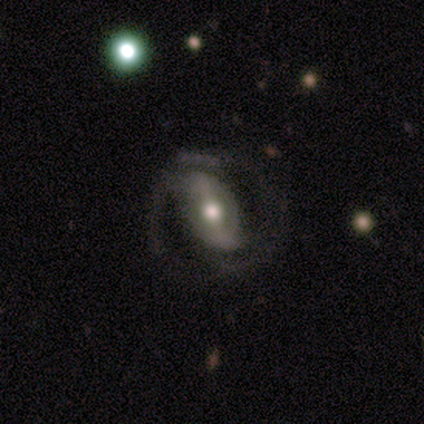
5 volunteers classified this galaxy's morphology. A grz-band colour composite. It shows a featured or disk galaxy (80%) with a weak bar (50%), 2 (75%) medium (50%, tied with loose) spiral arms (100%) and a moderate central bulge (100%). Merging: none (80%).